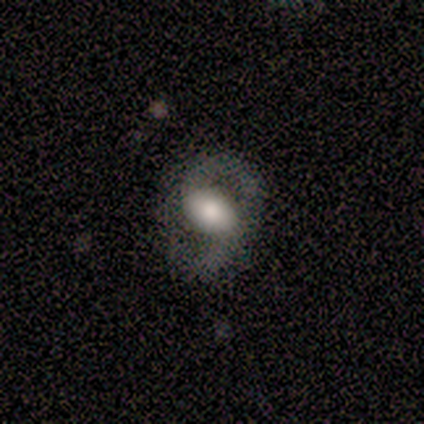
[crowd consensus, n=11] smooth_or_featured: featured or disk (p=0.55) [alt: smooth p=0.45]
disk_edge_on: no (p=1.00)
bar: no (p=0.50) [alt: weak p=0.33]
has_spiral_arms: yes (p=1.00)
spiral_winding: medium (p=0.50) [tied with: loose p=0.50]
spiral_arm_count: 2 (p=1.00)
bulge_size: large (p=0.50) [tied with: moderate p=0.50]
merging: none (p=0.73) [alt: merger p=0.18]